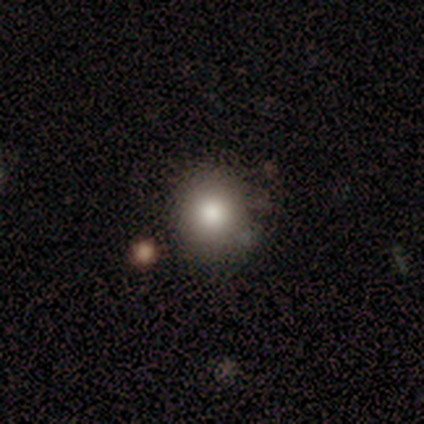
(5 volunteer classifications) smooth_or_featured: smooth (p=0.80) [alt: featured or disk p=0.20]
how_rounded: round (p=1.00)
merging: none (p=0.80) [alt: merger p=0.20]